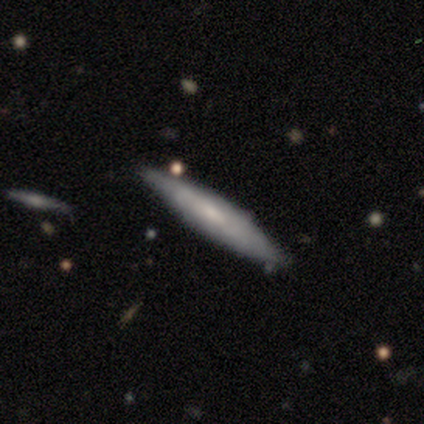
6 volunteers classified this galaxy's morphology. Overall: smooth (67%; featured or disk 33%). How rounded: cigar-shaped (100%). Merging: none (83%).